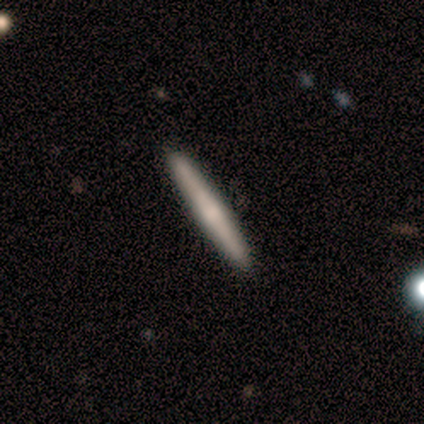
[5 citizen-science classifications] Overall: smooth (60%; featured or disk 40%). How rounded: cigar-shaped (100%). Merging: none (100%).